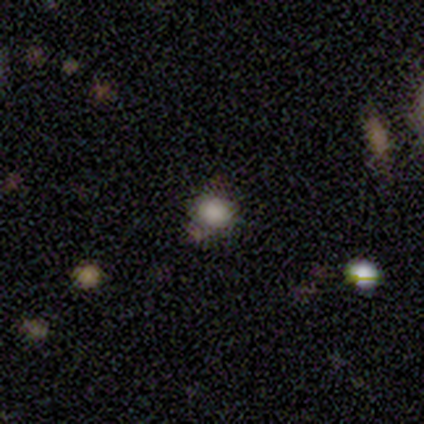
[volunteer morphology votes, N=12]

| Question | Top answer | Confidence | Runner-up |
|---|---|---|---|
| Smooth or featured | smooth | 83% | star or artifact (17%) |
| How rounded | round | 70% | in between (30%) |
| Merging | none | 90% | minor disturbance (10%) |